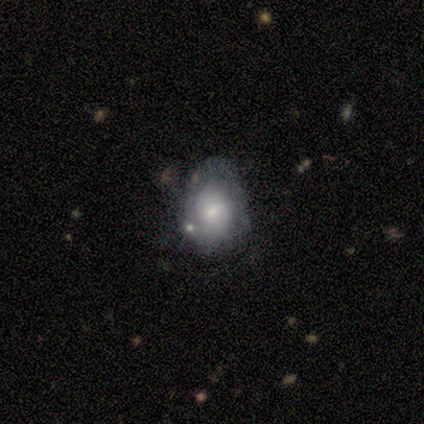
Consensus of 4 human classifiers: Smooth or featured?
  - smooth: 75% *
  - featured or disk: 25%
  - star or artifact: 0%
How rounded?
  - in between: 67% *
  - round: 33%
  - cigar-shaped: 0%
Merging?
  - none: 75% *
  - minor disturbance: 25%
  - major disturbance: 0%
  - merger: 0%